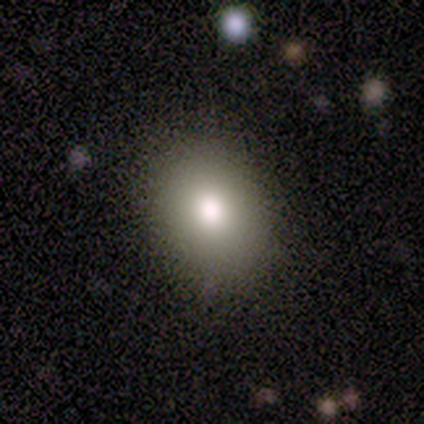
Morphology: type=smooth (80%); roundness=round (50%, tied with in between); merging=none (80%).